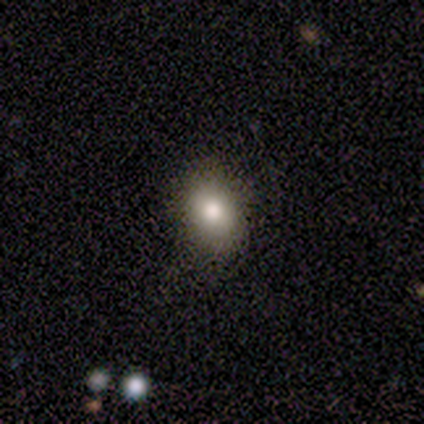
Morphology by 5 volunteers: Smooth or featured? smooth (60%)
How rounded? round (33%, tied with in between and cigar-shaped)
Merging? none (100%)